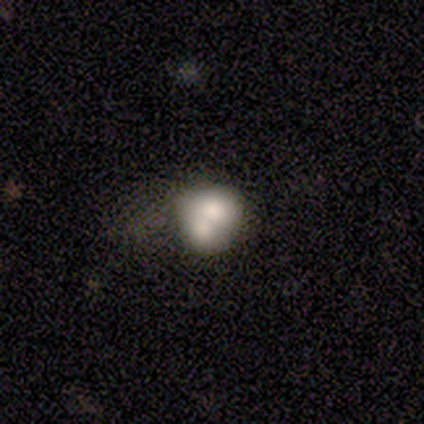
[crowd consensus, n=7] Smooth or featured?
  - smooth: 71% *
  - featured or disk: 29%
  - star or artifact: 0%
How rounded?
  - round: 60% *
  - in between: 40%
  - cigar-shaped: 0%
Merging?
  - merger: 86% *
  - major disturbance: 14%
  - none: 0%
  - minor disturbance: 0%